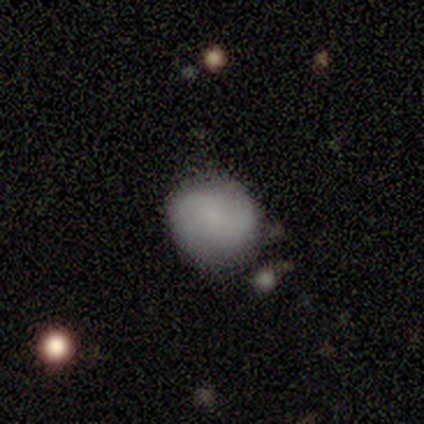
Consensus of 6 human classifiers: Smooth or featured: smooth — 67% (featured or disk — 33%)
How rounded: round — 100%
Merging: none — 67% (minor disturbance — 17%)